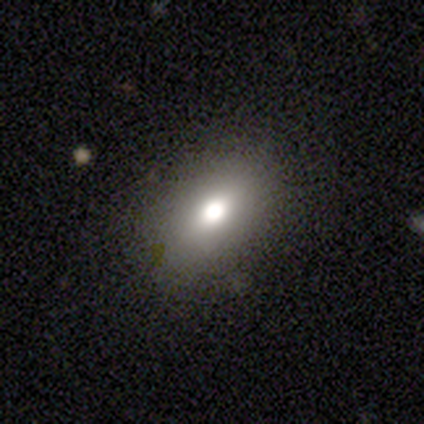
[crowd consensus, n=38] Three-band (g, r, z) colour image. It shows a smooth galaxy with no disk features (79%) that is in between round and cigar-shaped (90%). Merging: none (94%).